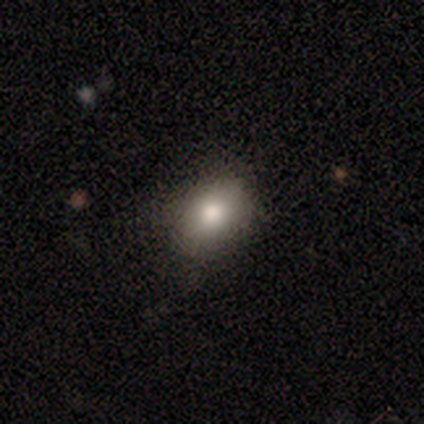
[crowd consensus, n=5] Volunteers were most divided on "smooth or featured": featured or disk: 60%, smooth: 40%, star or artifact: 0%. More confident: edge-on disk — no (100%); bar — no (100%); spiral arms — no (100%); merging — none (80%); bulge size — moderate (67%).